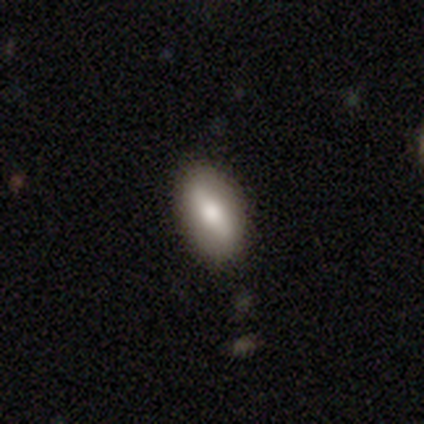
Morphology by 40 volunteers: Smooth or featured: smooth — 62% (featured or disk — 38%)
How rounded: in between — 80% (cigar-shaped — 16%)
Merging: none — 72% (minor disturbance — 22%)